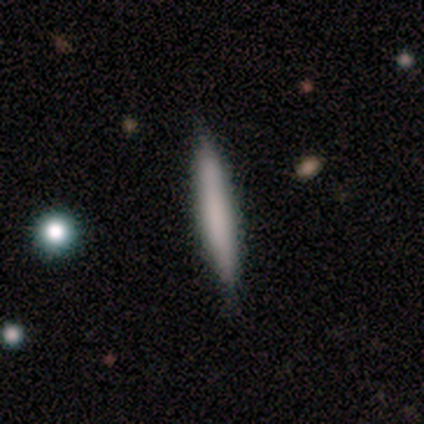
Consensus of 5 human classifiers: This appears to be a featured or disk galaxy (60%) viewed edge-on (100%) with no central bulge (100%). Merging: none (80%).